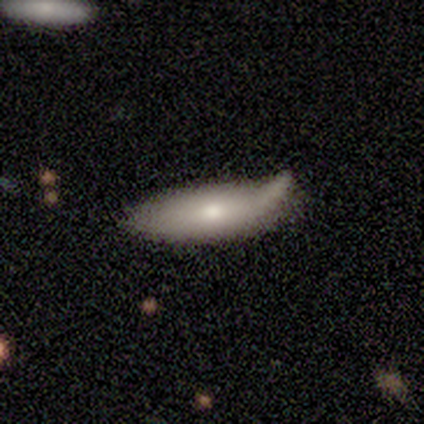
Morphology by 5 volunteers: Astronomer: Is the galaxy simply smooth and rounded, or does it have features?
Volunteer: smooth — 100%.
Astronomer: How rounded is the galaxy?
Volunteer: in between — 60% (runner-up: cigar-shaped, 40%).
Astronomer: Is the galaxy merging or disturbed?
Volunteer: major disturbance — 40% (runner-up: none, 20%).